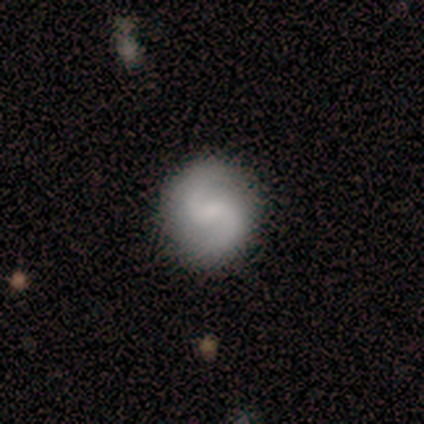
A featured or disk galaxy (60%) with a weak bar (67%), 2 (100%) loose (67%) spiral arms (100%) and no central bulge (67%). Merging: none (100%).